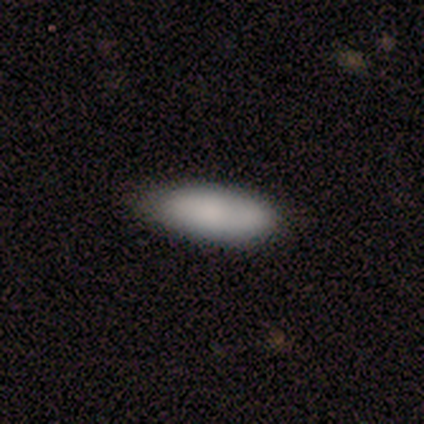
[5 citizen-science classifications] Overall: smooth (80%). How rounded: in between (100%). Merging: none (80%).